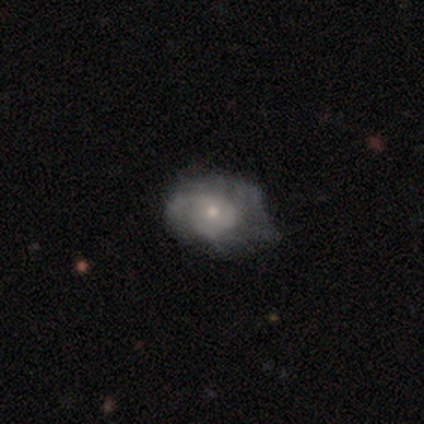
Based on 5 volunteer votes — Overall: featured or disk (80%). Edge-on disk: no (100%). Bar: no (100%). Spiral arms: yes (100%). Spiral arm count: 1 (50%, tied with 2). Spiral winding: medium (75%). Bulge size: moderate (50%, tied with small). Merging: none (40%, tied with minor disturbance).